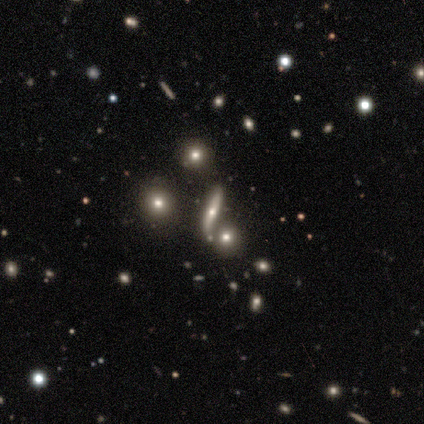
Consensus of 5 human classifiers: featured or disk 80%, star or artifact 20%, smooth 0%. Down the decision tree: edge-on disk — yes (75%); edge-on bulge — none (67%); merging — merger (75%).